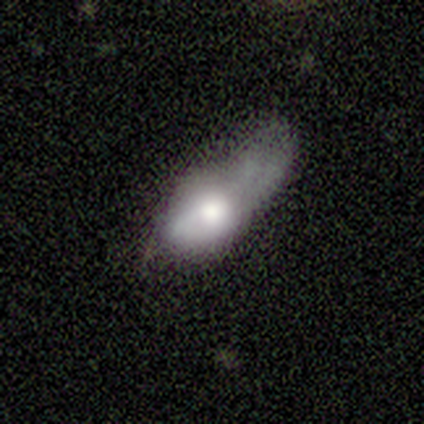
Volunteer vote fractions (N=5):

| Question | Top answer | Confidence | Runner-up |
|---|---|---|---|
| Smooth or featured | smooth | 80% | featured or disk (20%) |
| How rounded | in between | 75% | cigar-shaped (25%) |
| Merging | major disturbance | 80% | minor disturbance (20%) |